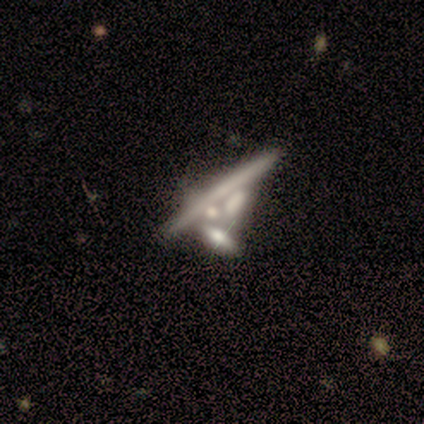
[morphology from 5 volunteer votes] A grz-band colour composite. It shows a featured or disk galaxy (80%) viewed edge-on (75%) with a rounded central bulge (67%). Merging: minor disturbance (40%, tied with merger).